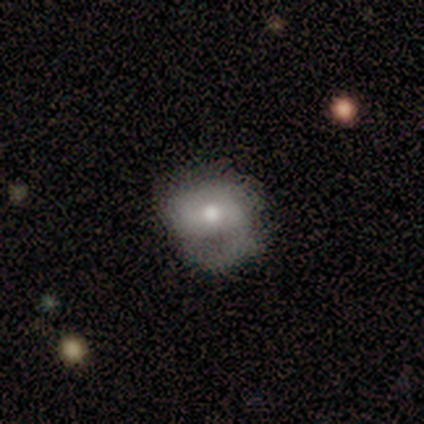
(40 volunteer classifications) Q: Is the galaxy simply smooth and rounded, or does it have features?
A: featured or disk — 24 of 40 (60%).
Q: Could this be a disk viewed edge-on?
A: no — 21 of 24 (88%).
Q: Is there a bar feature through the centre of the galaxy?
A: no — 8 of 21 (38%).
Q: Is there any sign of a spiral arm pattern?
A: yes — 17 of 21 (81%).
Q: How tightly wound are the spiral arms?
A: tight — 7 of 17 (41%).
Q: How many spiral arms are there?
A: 2 — 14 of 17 (82%).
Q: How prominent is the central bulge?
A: moderate — 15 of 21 (71%).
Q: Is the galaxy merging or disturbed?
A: minor disturbance — 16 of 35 (46%).